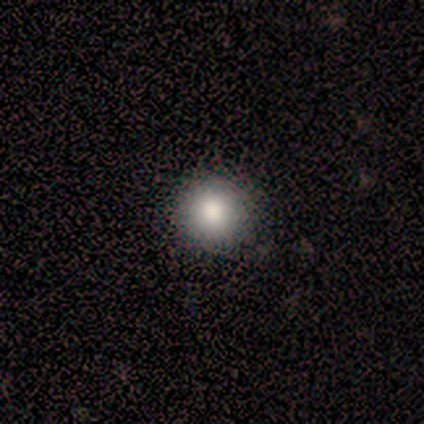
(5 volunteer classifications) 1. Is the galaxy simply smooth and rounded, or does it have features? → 80% smooth, 20% star or artifact, 0% featured or disk.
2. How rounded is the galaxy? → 100% round, 0% in between, 0% cigar-shaped.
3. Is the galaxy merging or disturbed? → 100% none, 0% minor disturbance, 0% major disturbance, 0% merger.